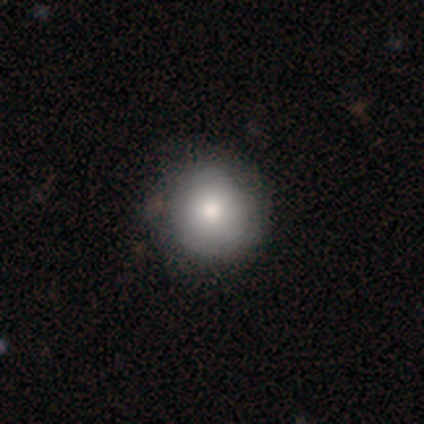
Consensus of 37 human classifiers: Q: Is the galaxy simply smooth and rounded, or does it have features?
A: smooth — 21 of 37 (57%).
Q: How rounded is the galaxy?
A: round — 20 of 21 (95%).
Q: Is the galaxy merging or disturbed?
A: none — 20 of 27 (74%).